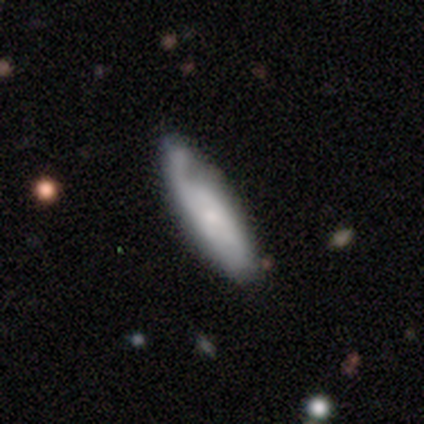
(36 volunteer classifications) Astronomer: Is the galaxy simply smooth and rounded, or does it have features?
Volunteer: smooth — 53% (runner-up: featured or disk, 44%).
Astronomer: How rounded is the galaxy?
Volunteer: cigar-shaped — 58% (runner-up: in between, 42%).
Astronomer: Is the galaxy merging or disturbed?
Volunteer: none — 54% (runner-up: minor disturbance, 37%).